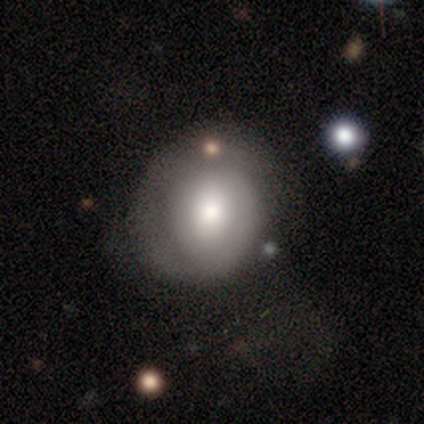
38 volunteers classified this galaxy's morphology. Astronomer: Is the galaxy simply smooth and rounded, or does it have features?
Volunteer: smooth — 61% (runner-up: featured or disk, 37%).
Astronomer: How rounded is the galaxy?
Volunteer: round — 78%.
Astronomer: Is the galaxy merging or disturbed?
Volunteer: none — 65%.